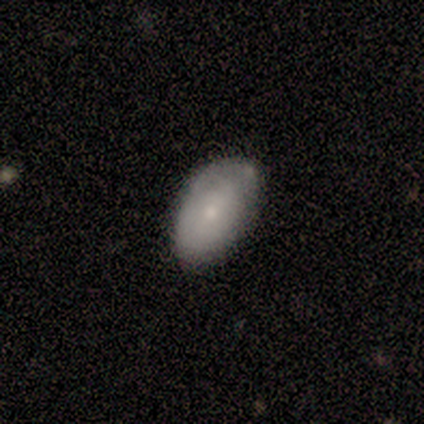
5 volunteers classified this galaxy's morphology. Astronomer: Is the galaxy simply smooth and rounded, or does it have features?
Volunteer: smooth — 100%.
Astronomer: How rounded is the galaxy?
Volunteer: in between — 100%.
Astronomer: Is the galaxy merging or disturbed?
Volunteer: none — 80%.